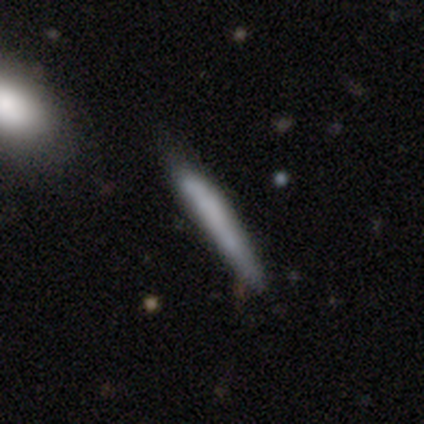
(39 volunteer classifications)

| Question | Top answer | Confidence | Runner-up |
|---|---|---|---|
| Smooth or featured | smooth | 69% | featured or disk (26%) |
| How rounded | cigar-shaped | 100% | — |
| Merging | none | 78% | minor disturbance (22%) |